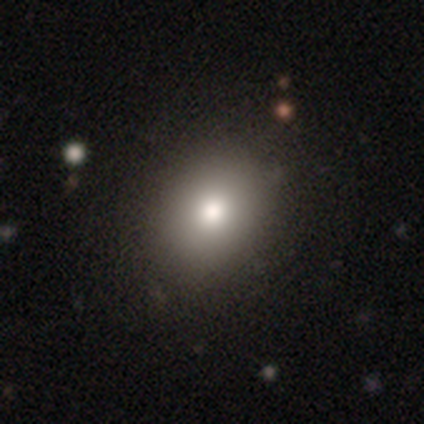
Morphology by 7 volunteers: Smooth or featured?
  - smooth: 71% *
  - star or artifact: 29%
  - featured or disk: 0%
How rounded?
  - in between: 80% *
  - round: 20%
  - cigar-shaped: 0%
Merging?
  - none: 80% *
  - minor disturbance: 20%
  - major disturbance: 0%
  - merger: 0%